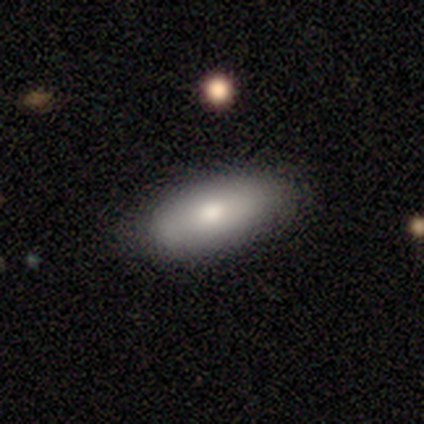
Smooth or featured? 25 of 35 (71%) said smooth. How rounded? 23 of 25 (92%) said in between. Merging? 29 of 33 (88%) said none.